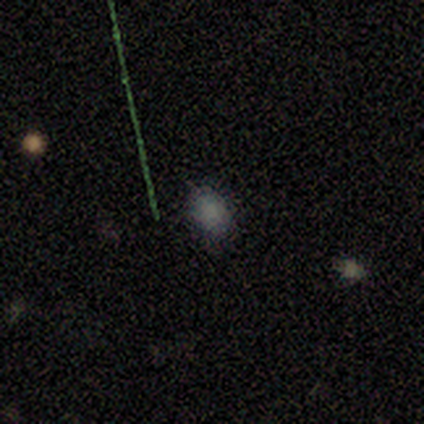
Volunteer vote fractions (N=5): Smooth or featured?
  - star or artifact: 80% *
  - smooth: 20%
  - featured or disk: 0%